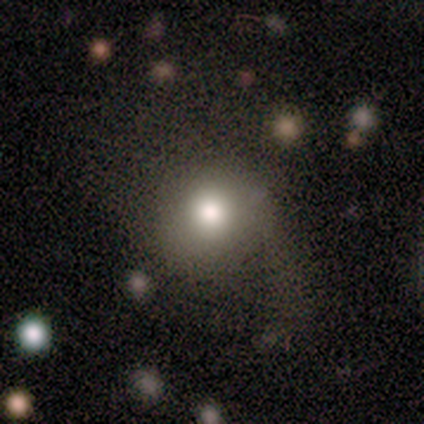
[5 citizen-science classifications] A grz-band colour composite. It shows a smooth galaxy with no disk features (60%) that is in between round and cigar-shaped (67%). Merging: major disturbance (100%).